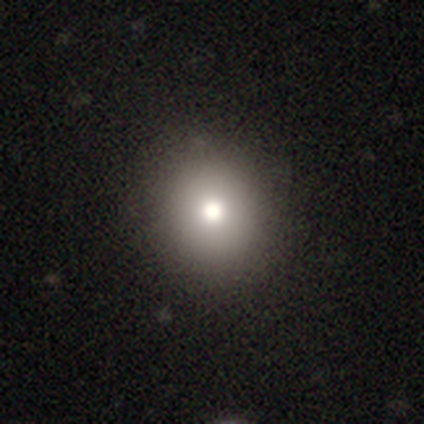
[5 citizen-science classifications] A smooth galaxy with no disk features (100%) that is round (100%). Merging: none (100%).